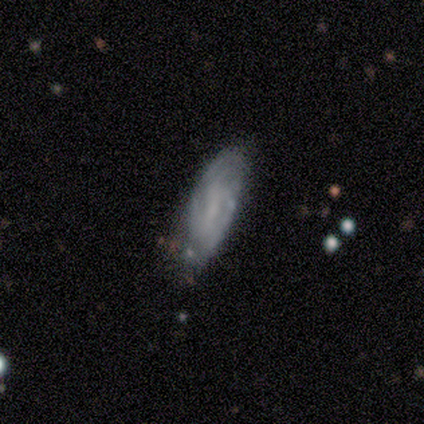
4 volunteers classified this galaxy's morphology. Q: Smooth or featured?
A: featured or disk (75%); runner-up: smooth (25%)
Q: Edge-on disk?
A: no (100%)
Q: Bar?
A: no (100%)
Q: Spiral arms?
A: yes (67%); runner-up: no (33%)
Q: Spiral winding?
A: tight (100%)
Q: Spiral arm count?
A: 2 (100%)
Q: Bulge size?
A: none (100%)
Q: Merging?
A: none (75%); runner-up: minor disturbance (25%)